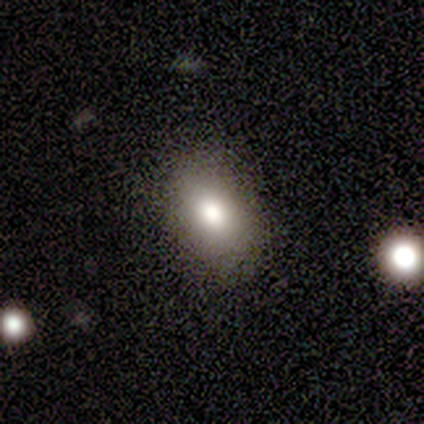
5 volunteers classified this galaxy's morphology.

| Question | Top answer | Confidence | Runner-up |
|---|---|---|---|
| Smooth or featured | smooth | 100% | — |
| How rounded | in between | 100% | — |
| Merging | none | 100% | — |